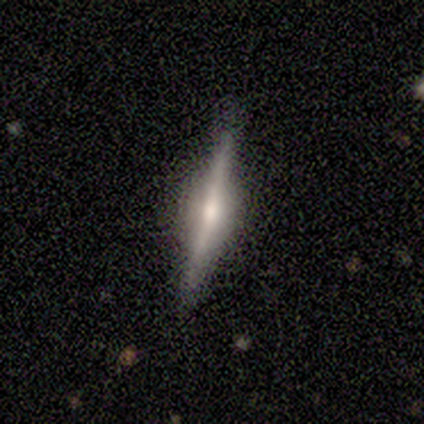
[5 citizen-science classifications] Smooth or featured?
  - featured or disk: 100% *
  - smooth: 0%
  - star or artifact: 0%
Edge-on disk?
  - yes: 100% *
  - no: 0%
Edge-on bulge?
  - rounded: 80% *
  - none: 20%
  - boxy: 0%
Merging?
  - none: 100% *
  - minor disturbance: 0%
  - major disturbance: 0%
  - merger: 0%